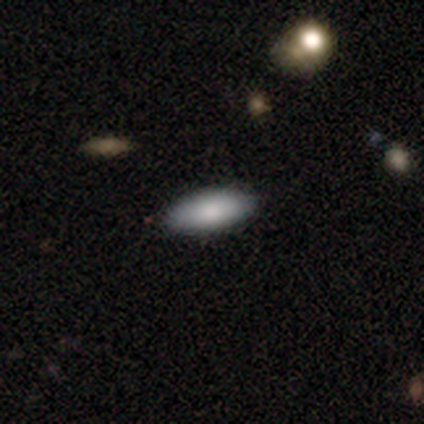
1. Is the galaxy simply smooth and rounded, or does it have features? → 100% smooth, 0% featured or disk, 0% star or artifact.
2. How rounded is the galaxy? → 80% in between, 20% cigar-shaped, 0% round.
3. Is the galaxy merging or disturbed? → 100% none, 0% minor disturbance, 0% major disturbance, 0% merger.